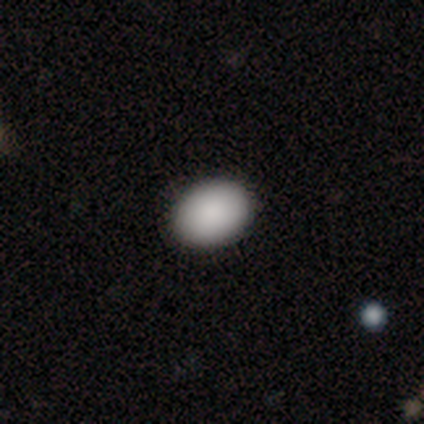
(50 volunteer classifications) smooth-or-featured: smooth: 86% | featured or disk: 8% | star or artifact: 6%
  how-rounded: in between: 79% | round: 21% | cigar-shaped: 0%
  merging: none: 91% | minor disturbance: 4% | major disturbance: 2% | merger: 2%